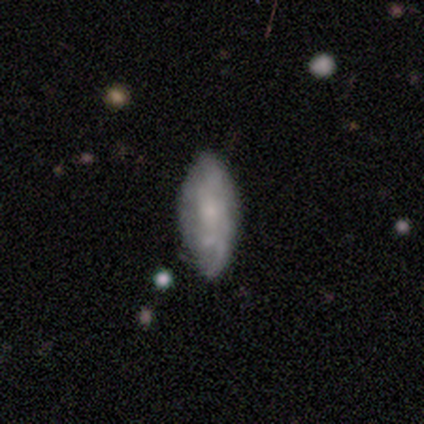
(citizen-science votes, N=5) Morphology: type=featured or disk (60%); edge-on=no (100%); bar=no (67%); spiral arms=yes (100%); winding=medium (67%); arm count=can't tell (100%); bulge=small (67%); merging=none (60%).